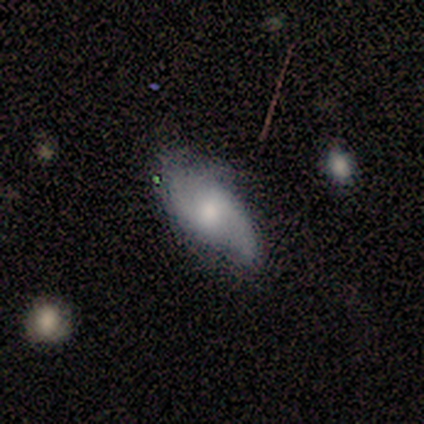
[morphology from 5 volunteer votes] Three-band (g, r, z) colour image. It shows a smooth galaxy with no disk features (40%, tied with featured or disk) that is in between round and cigar-shaped (100%). Merging: none (50%).